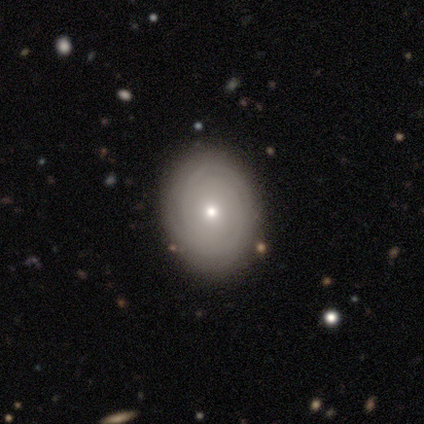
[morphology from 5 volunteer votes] A featured or disk galaxy (100%) with no bar (60%), 2 (25%, tied with 3, more than 4 and can't tell) tight (100%) spiral arms (80%) and a small central bulge (60%). Merging: none (100%).